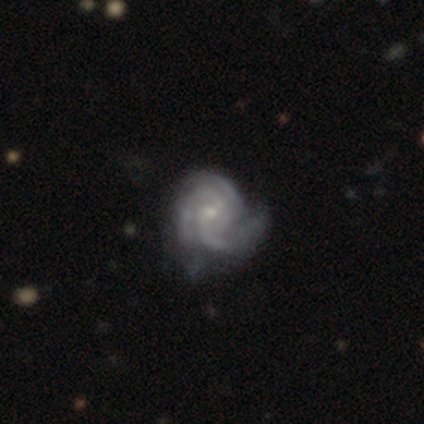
Smooth or featured? 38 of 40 (95%) said featured or disk. Edge-on disk? 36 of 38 (95%) said no. Bar? 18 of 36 (50%) said no. Spiral arms? 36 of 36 (100%) said yes. Spiral winding? 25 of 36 (69%) said tight. Spiral arm count? 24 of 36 (67%) said 3. Bulge size? 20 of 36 (56%) said small. Merging? 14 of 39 (36%) said minor disturbance.